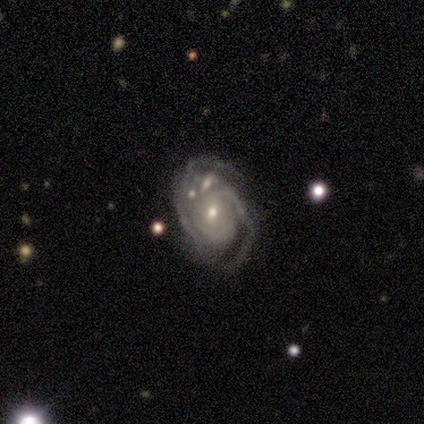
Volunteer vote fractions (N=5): A featured or disk galaxy (80%) with no bar (75%), medium (50%) spiral arms (100%) and a small central bulge (75%). Merging: none (100%).